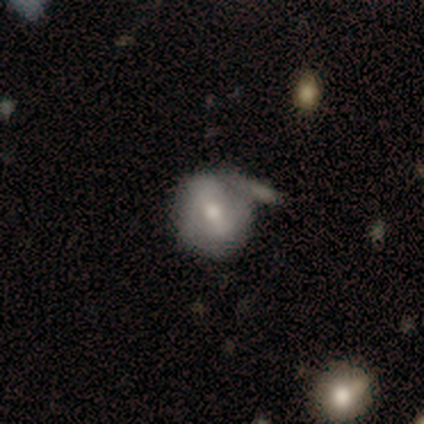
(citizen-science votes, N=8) smooth_or_featured: smooth (p=0.62) [alt: featured or disk p=0.38]
how_rounded: round (p=0.80) [alt: in between p=0.20]
merging: none (p=0.50) [alt: minor disturbance p=0.25]